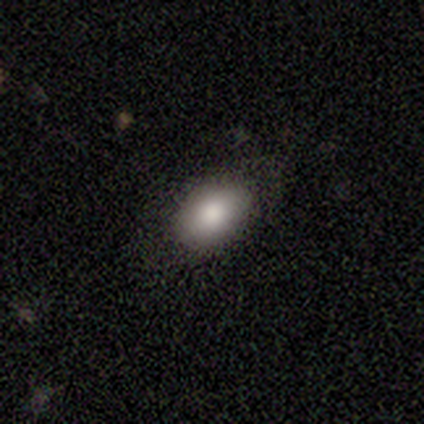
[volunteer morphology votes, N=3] Smooth or featured? smooth (100%)
How rounded? in between (67%)
Merging? none (100%)